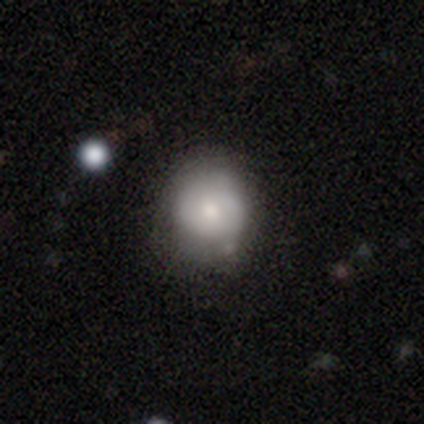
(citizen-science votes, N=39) This appears to be a smooth galaxy with no disk features (77%) that is round (87%). Merging: none (73%).